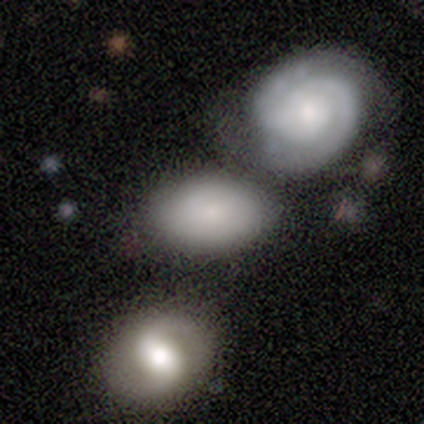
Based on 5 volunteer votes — Smooth or featured? featured or disk (60%)
Edge-on disk? no (100%)
Bar? no (100%)
Spiral arms? no (67%)
Bulge size? small (100%)
Merging? none (80%)